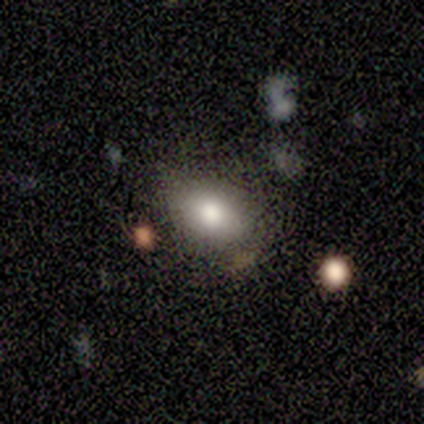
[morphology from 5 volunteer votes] Smooth or featured: smooth — 80% (star or artifact — 20%)
How rounded: round — 50% (tied with in between — 50%)
Merging: none — 75% (minor disturbance — 25%)